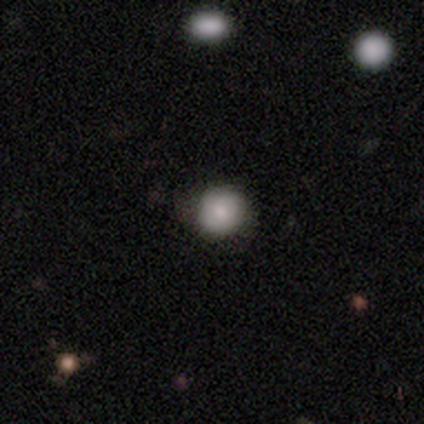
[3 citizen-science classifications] Overall: smooth (100%). How rounded: round (100%). Merging: none (100%).